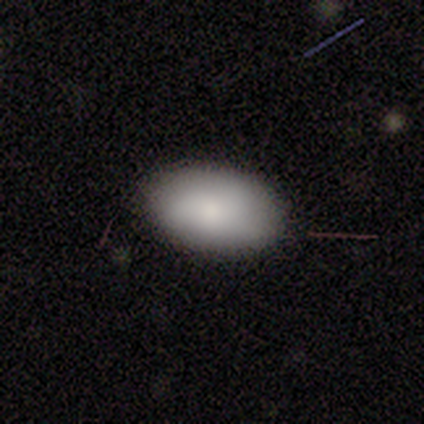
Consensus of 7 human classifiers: Smooth or featured? smooth (71%)
How rounded? in between (100%)
Merging? none (83%)